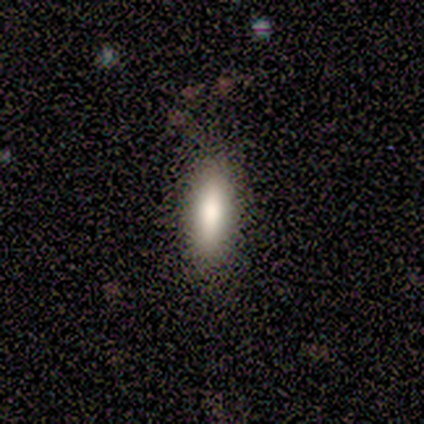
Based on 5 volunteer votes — Volunteers were most divided on "merging": none: 60%, minor disturbance: 40%, major disturbance: 0%, merger: 0%. More confident: smooth or featured — smooth (100%); how rounded — in between (80%).